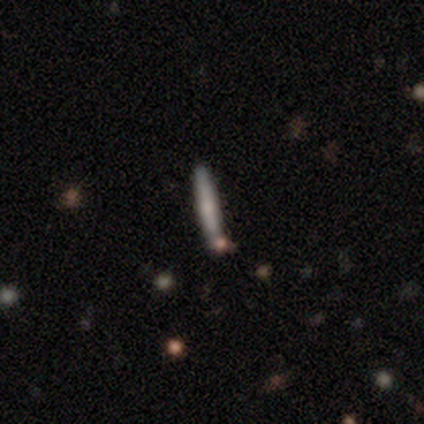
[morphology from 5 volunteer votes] Smooth or featured? smooth (100%)
How rounded? cigar-shaped (100%)
Merging? none (100%)